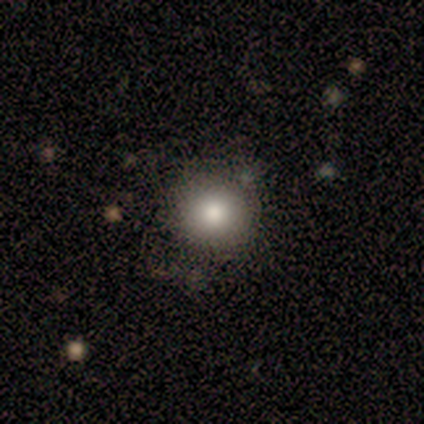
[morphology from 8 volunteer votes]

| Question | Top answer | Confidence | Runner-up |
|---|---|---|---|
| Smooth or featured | smooth | 88% | star or artifact (12%) |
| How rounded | round | 100% | — |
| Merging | none | 86% | minor disturbance (14%) |